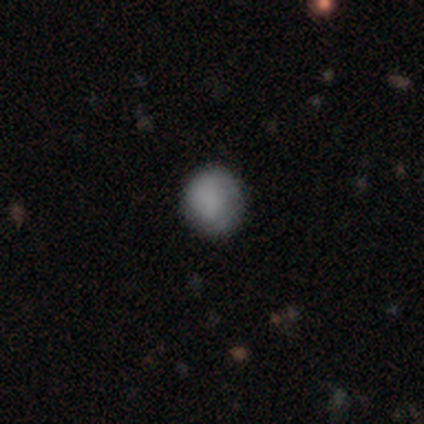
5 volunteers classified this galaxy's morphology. Volunteers were most divided on "how rounded": round: 60%, in between: 40%, cigar-shaped: 0%. More confident: smooth or featured — smooth (100%); merging — none (60%).